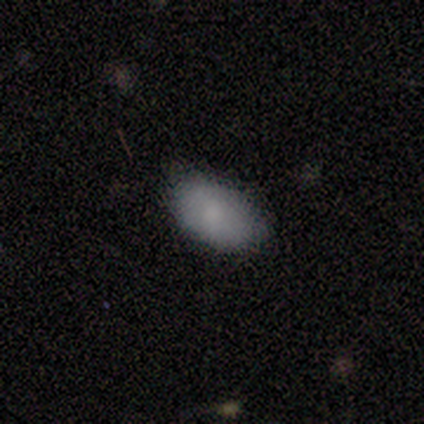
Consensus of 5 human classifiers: This appears to be a smooth galaxy with no disk features (80%) that is in between round and cigar-shaped (100%). Merging: none (80%).